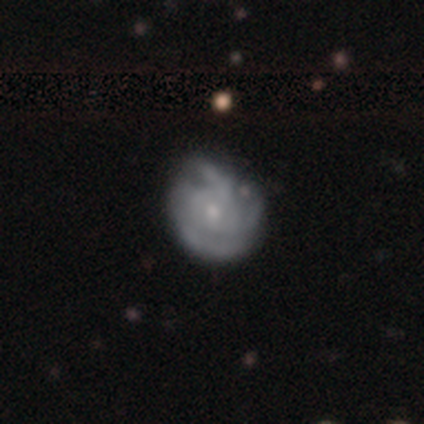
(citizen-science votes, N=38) Smooth or featured? featured or disk (84%)
Edge-on disk? no (100%)
Bar? no (94%)
Spiral arms? yes (88%)
Spiral winding? tight (71%)
Spiral arm count? 3 (36%)
Bulge size? small (50%)
Merging? none (75%)